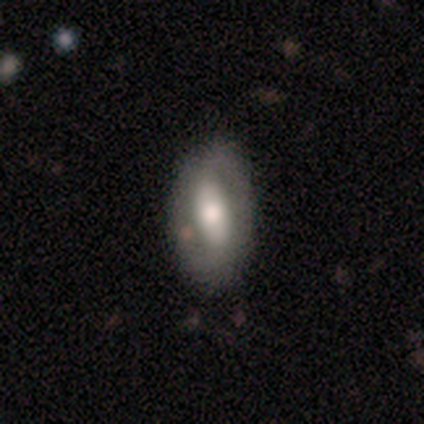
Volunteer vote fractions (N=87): A featured or disk galaxy (54%) with a weak bar (43%), 2 (88%) medium (42%) spiral arms (57%) and a moderate central bulge (55%). Merging: none (70%).